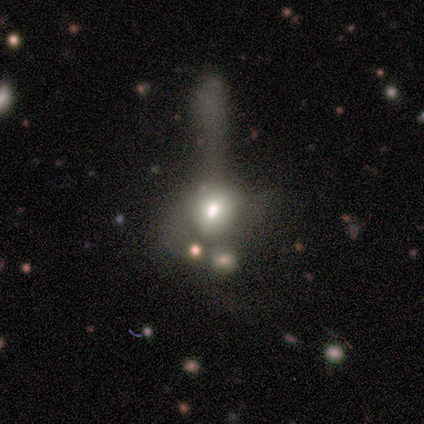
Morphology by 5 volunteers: featured or disk 40% (tied), star or artifact 40% (tied), smooth 20%. Down the decision tree: edge-on disk — no (100%); bar — no (100%); spiral arms — no (100%); bulge size — moderate (50%, tied with none); merging — major disturbance (100%).